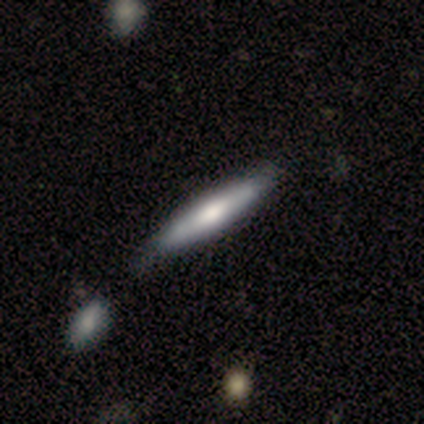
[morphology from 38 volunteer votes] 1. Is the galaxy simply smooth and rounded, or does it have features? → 55% featured or disk, 45% smooth, 0% star or artifact.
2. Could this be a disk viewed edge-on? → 90% yes, 10% no.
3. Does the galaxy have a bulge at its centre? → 58% rounded, 37% boxy, 5% none.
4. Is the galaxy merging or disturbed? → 50% none, 11% minor disturbance, 8% major disturbance, 5% merger.